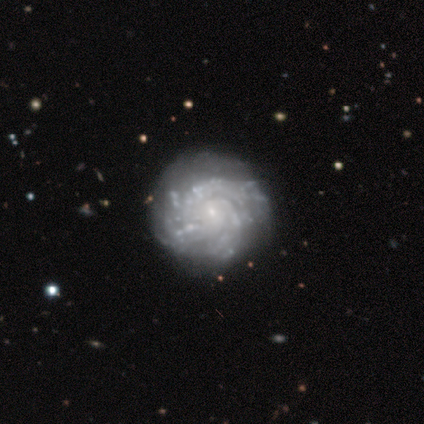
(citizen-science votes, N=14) Volunteers were most divided on "spiral winding": tight: 55%, medium: 45%, loose: 0%. More confident: edge-on disk — no (100%); spiral arms — yes (92%); smooth or featured — featured or disk (86%); bulge size — small (75%); bar — no (75%); spiral arm count — can't tell (55%); merging — none (50%).